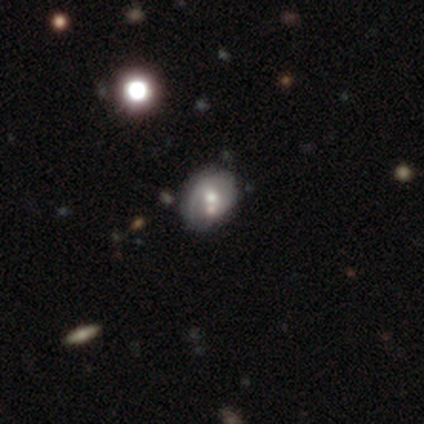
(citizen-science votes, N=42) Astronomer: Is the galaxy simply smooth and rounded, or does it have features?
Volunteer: featured or disk — 69%.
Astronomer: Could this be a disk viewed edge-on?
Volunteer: no — 100%.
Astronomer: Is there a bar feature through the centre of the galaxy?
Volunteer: no — 93%.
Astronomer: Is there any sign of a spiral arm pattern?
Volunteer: no — 55% (runner-up: yes, 45%).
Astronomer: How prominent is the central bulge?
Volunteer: moderate — 83%.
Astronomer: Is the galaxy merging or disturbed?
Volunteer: none — 55%.